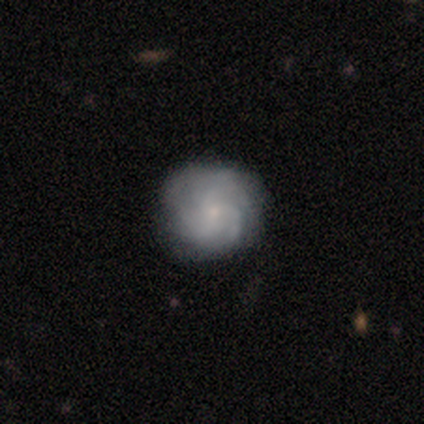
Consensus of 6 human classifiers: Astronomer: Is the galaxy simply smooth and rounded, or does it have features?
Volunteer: featured or disk — 100%.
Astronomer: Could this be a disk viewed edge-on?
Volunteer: no — 100%.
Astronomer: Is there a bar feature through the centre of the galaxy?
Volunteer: no — 100%.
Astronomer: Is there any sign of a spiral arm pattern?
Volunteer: yes — 100%.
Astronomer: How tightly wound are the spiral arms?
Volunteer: tight — 50%, tied with medium at 50%.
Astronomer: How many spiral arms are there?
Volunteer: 3 — 67%.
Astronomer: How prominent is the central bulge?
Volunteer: small — 100%.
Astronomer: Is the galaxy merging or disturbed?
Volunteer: none — 83%.